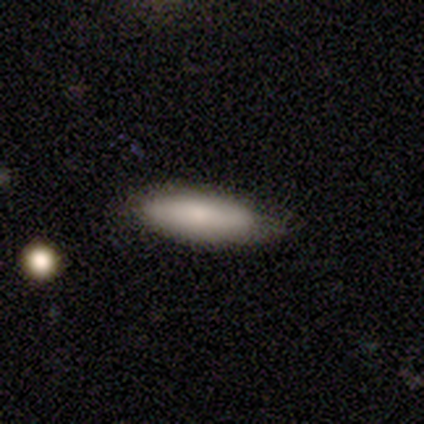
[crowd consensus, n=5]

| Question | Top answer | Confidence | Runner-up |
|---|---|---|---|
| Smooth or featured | smooth | 80% | featured or disk (20%) |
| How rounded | in between | 50% | tied: cigar-shaped (50%) |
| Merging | none | 100% | — |